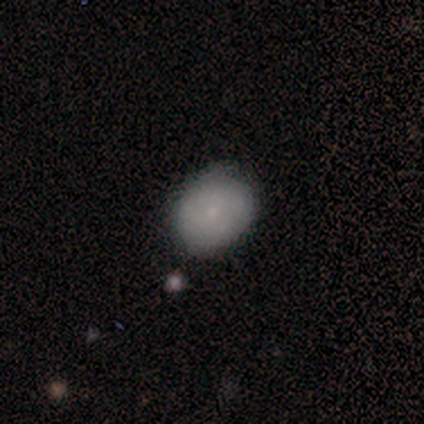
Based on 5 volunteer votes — Smooth or featured? 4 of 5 (80%) said smooth. How rounded? 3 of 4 (75%) said round. Merging? 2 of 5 (40%, tied with minor disturbance) said none.